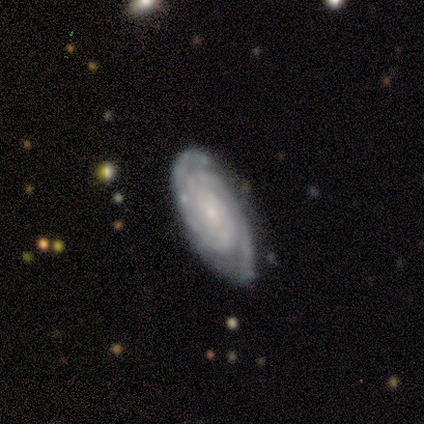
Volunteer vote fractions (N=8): Smooth or featured? featured or disk (100%)
Edge-on disk? no (100%)
Bar? weak (50%, tied with no)
Spiral arms? yes (100%)
Spiral winding? tight (88%)
Spiral arm count? can't tell (38%)
Bulge size? small (88%)
Merging? none (100%)